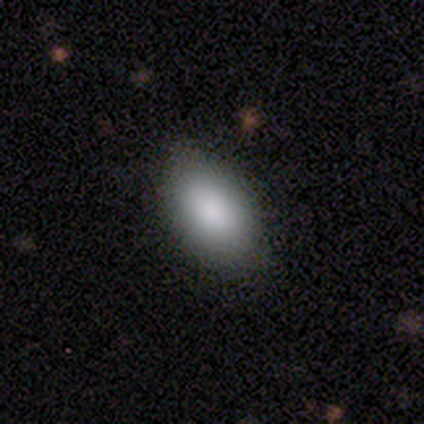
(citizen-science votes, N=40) Smooth or featured? 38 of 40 (95%) said smooth. How rounded? 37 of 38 (97%) said in between. Merging? 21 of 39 (54%) said none.